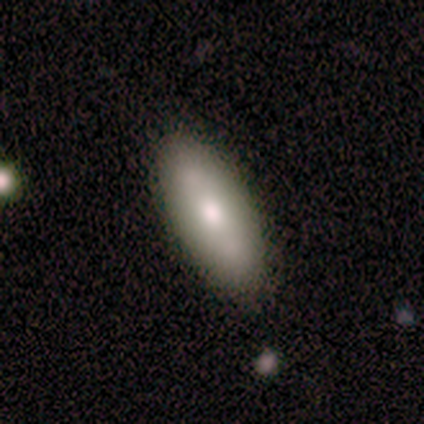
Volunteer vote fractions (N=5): This is clearly a smooth galaxy (80%). How rounded: likely in between (75%). Merging: clearly none (80%).